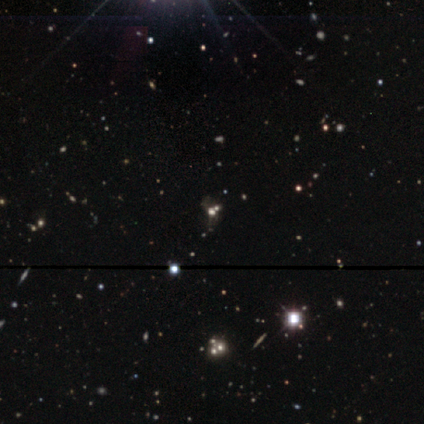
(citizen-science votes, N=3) star or artifact 67%, featured or disk 33%, smooth 0%.